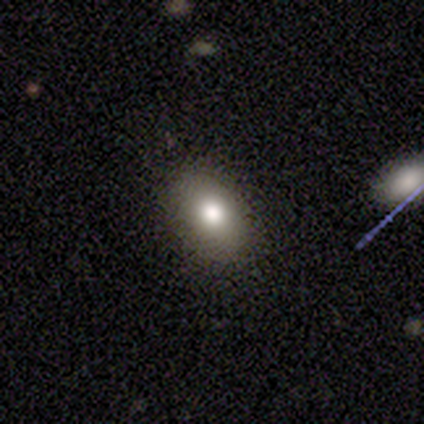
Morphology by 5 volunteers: Overall: smooth (100%). How rounded: in between (80%). Merging: none (80%).